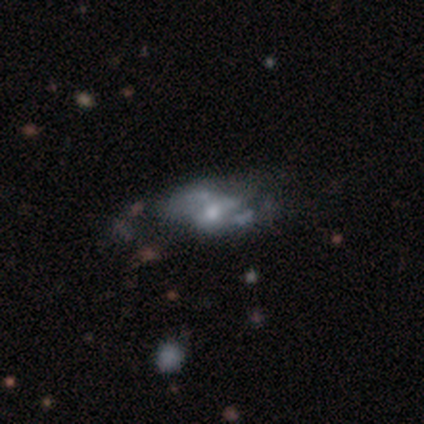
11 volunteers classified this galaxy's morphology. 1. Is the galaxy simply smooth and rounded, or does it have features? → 45% featured or disk, 27% smooth, 27% star or artifact.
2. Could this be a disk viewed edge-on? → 100% no, 0% yes.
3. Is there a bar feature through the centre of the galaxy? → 60% no, 20% strong, 20% weak.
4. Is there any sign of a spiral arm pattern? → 60% yes, 40% no.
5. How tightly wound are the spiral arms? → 67% medium, 33% loose, 0% tight.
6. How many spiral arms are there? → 67% 2, 33% can't tell, 0% 1, 0% 3, 0% 4, 0% more than 4.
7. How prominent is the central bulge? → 80% moderate, 20% small, 0% dominant, 0% large, 0% none.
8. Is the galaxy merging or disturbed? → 62% none, 25% major disturbance, 12% minor disturbance, 0% merger.